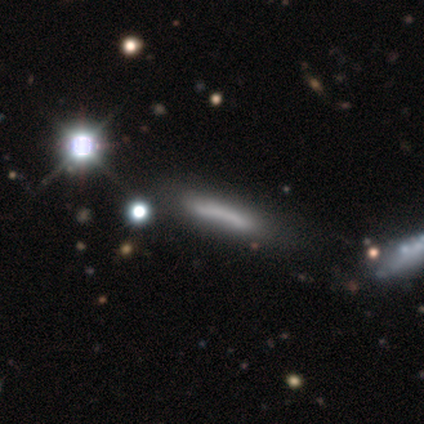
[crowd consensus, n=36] smooth 56%, featured or disk 28%, star or artifact 17%. Down the decision tree: how rounded — cigar-shaped (95%); merging — none (50%).